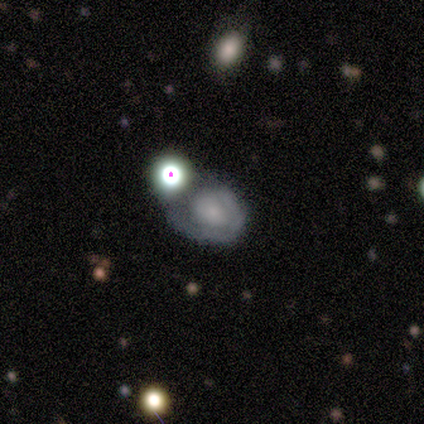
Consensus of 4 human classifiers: Volunteers were most divided on "bar" (2-way tie): weak: 50%, no: 50%, strong: 0%; "merging" (3-way tie): minor disturbance: 33%, major disturbance: 33%, merger: 33%, none: 0%. More confident: edge-on disk — no (100%); spiral arms — no (100%); bulge size — none (100%); smooth or featured — featured or disk (50%).